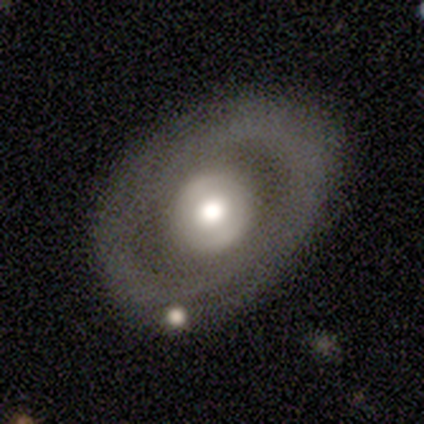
featured or disk 60%, smooth 40%, star or artifact 0%. Down the decision tree: edge-on disk — no (100%); bar — no (67%); spiral arms — yes (67%); spiral arm count — can't tell (100%); spiral winding — medium (100%); bulge size — moderate (67%); merging — none (80%).